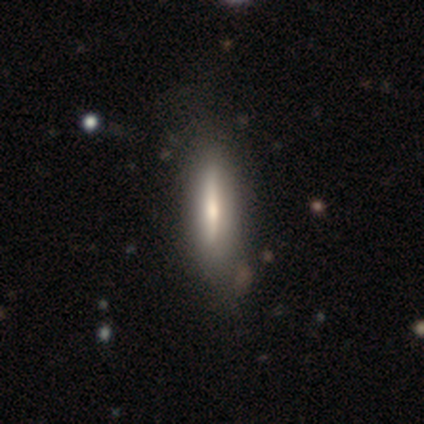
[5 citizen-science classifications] Q: Smooth or featured?
A: featured or disk (60%); runner-up: smooth (40%)
Q: Edge-on disk?
A: yes (67%); runner-up: no (33%)
Q: Edge-on bulge?
A: rounded (100%)
Q: Merging?
A: none (100%)